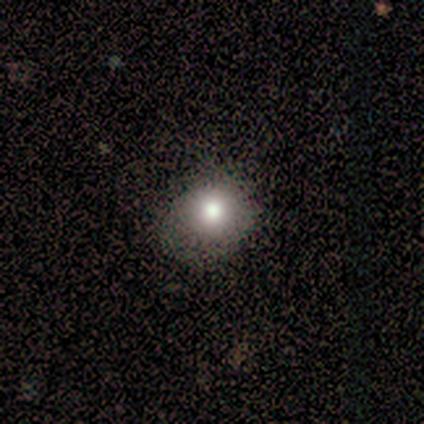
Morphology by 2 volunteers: Smooth or featured?
  - smooth: 100% *
  - featured or disk: 0%
  - star or artifact: 0%
How rounded?
  - round: 100% *
  - in between: 0%
  - cigar-shaped: 0%
Merging?
  - none: 100% *
  - minor disturbance: 0%
  - major disturbance: 0%
  - merger: 0%